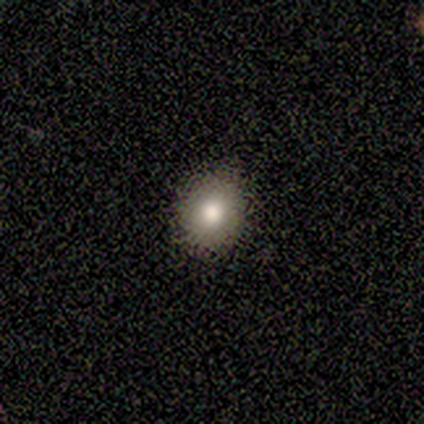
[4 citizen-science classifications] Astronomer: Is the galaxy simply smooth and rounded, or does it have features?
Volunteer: smooth — 100%.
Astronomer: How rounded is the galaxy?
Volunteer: round — 100%.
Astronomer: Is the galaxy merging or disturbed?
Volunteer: none — 75%.